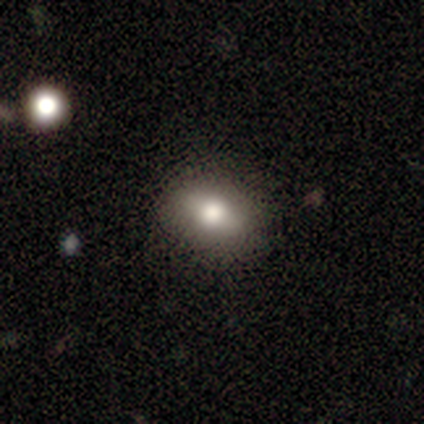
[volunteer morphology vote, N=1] This is clearly a smooth galaxy (100%). How rounded: clearly in between (100%). Merging: clearly none (100%).